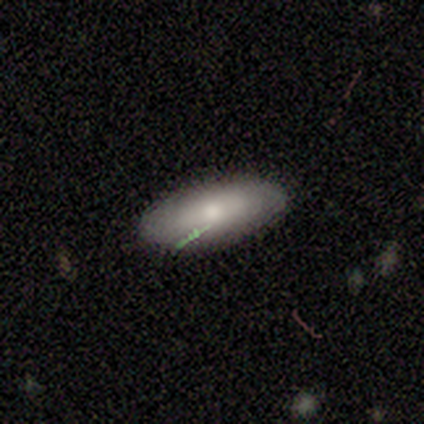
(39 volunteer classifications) This is likely a smooth galaxy (72%). How rounded: clearly in between (82%). Merging: clearly none (84%).